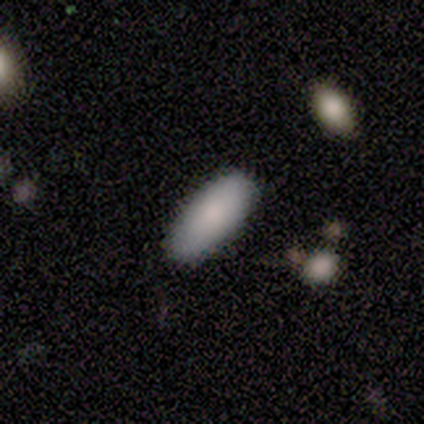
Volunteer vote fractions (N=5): Smooth or featured? 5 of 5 (100%) said smooth. How rounded? 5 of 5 (100%) said in between. Merging? 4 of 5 (80%) said none.